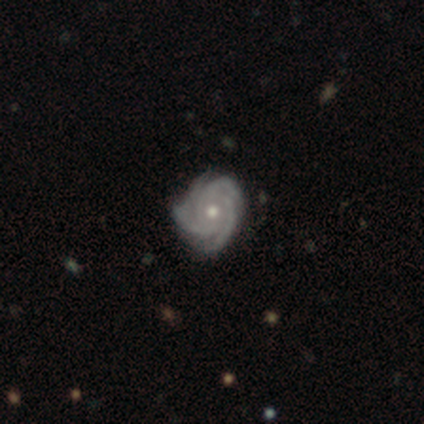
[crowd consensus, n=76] Q: Smooth or featured?
A: featured or disk (91%); runner-up: smooth (5%)
Q: Edge-on disk?
A: no (99%); runner-up: yes (1%)
Q: Bar?
A: no (87%); runner-up: weak (10%)
Q: Spiral arms?
A: yes (99%); runner-up: no (1%)
Q: Spiral winding?
A: tight (72%); runner-up: medium (24%)
Q: Spiral arm count?
A: 3 (48%); runner-up: 4 (43%)
Q: Bulge size?
A: moderate (74%); runner-up: small (22%)
Q: Merging?
A: none (55%); runner-up: minor disturbance (18%)